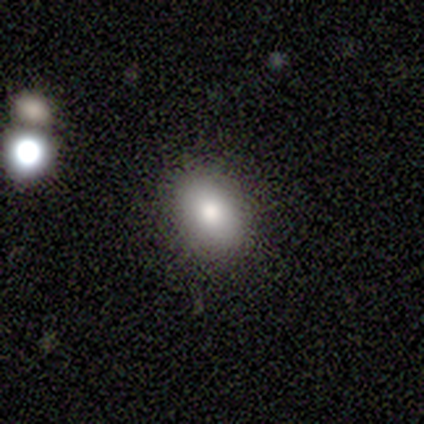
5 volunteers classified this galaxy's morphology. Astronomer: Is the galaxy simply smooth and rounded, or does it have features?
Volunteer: smooth — 100%.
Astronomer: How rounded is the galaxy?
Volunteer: in between — 80%.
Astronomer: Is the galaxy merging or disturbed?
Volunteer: none — 80%.